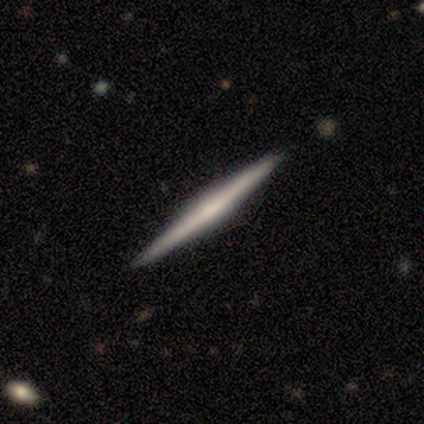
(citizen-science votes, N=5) A featured or disk galaxy (60%) viewed edge-on (100%) with a rounded central bulge (67%). Merging: none (100%).